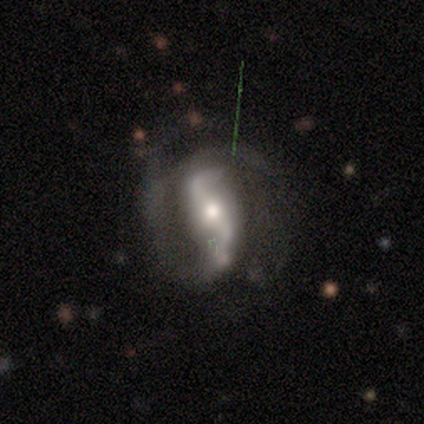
Smooth or featured? 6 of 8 (75%) said featured or disk. Edge-on disk? 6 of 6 (100%) said no. Bar? 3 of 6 (50%) said strong. Spiral arms? 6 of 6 (100%) said yes. Spiral winding? 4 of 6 (67%) said medium. Spiral arm count? 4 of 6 (67%) said 2. Bulge size? 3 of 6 (50%, tied with small) said moderate. Merging? 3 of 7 (43%) said minor disturbance.